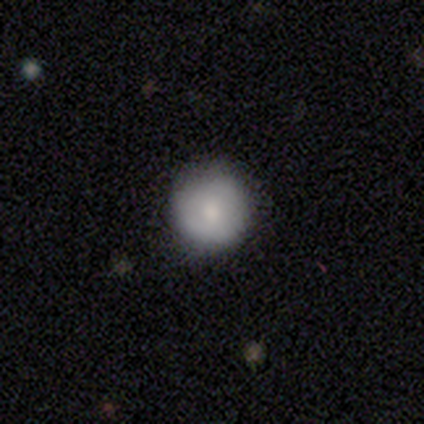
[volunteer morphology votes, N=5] Q: Smooth or featured?
A: smooth (100%)
Q: How rounded?
A: round (100%)
Q: Merging?
A: none (80%); runner-up: minor disturbance (20%)